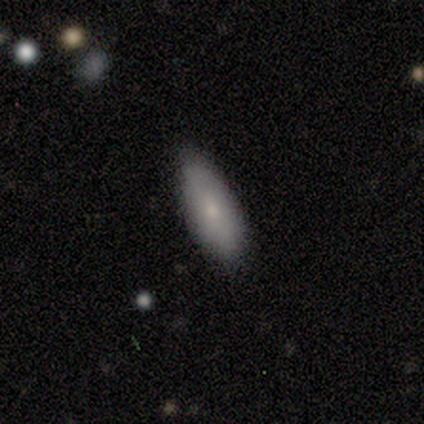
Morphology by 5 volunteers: Q: Smooth or featured?
A: smooth (100%)
Q: How rounded?
A: in between (80%); runner-up: cigar-shaped (20%)
Q: Merging?
A: none (80%); runner-up: minor disturbance (20%)